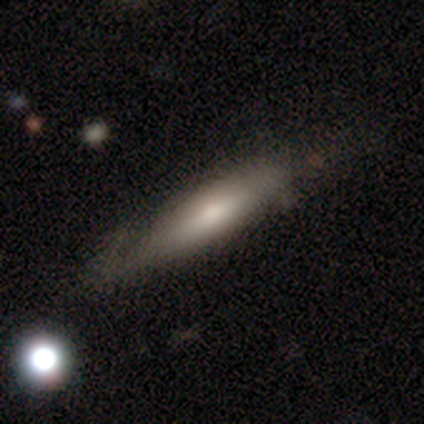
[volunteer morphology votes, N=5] Smooth or featured?
  - smooth: 80% *
  - featured or disk: 20%
  - star or artifact: 0%
How rounded?
  - cigar-shaped: 100% *
  - round: 0%
  - in between: 0%
Merging?
  - none: 60% *
  - minor disturbance: 40%
  - major disturbance: 0%
  - merger: 0%